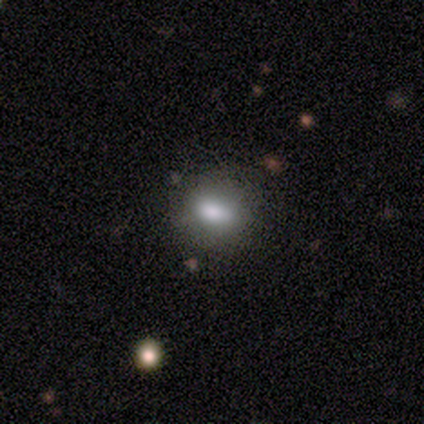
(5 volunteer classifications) smooth-or-featured: smooth: 80% | featured or disk: 20% | star or artifact: 0%
  how-rounded: in between: 100% | round: 0% | cigar-shaped: 0%
  merging: none: 60% | minor disturbance: 20% | merger: 20% | major disturbance: 0%